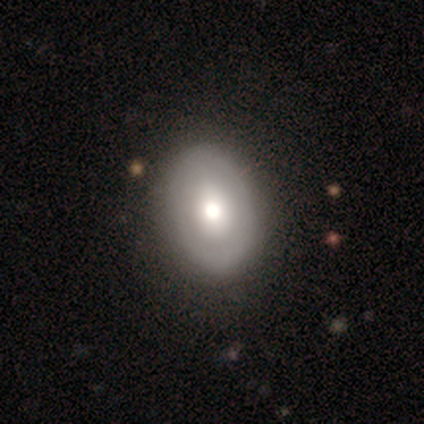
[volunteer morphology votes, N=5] Smooth or featured? smooth (80%)
How rounded? in between (100%)
Merging? none (100%)